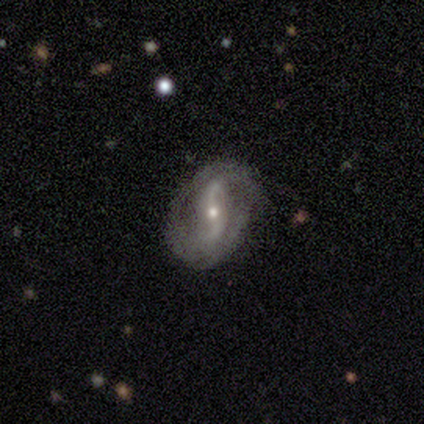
Smooth or featured?
  - featured or disk: 80% *
  - star or artifact: 20%
  - smooth: 0%
Edge-on disk?
  - no: 75% *
  - yes: 25%
Bar?
  - no: 67% *
  - weak: 33%
  - strong: 0%
Spiral arms?
  - yes: 67% *
  - no: 33%
Spiral winding?
  - loose: 100% *
  - tight: 0%
  - medium: 0%
Spiral arm count?
  - 2: 100% *
  - 1: 0%
  - 3: 0%
  - 4: 0%
  - more than 4: 0%
  - can't tell: 0%
Bulge size?
  - small: 100% *
  - dominant: 0%
  - large: 0%
  - moderate: 0%
  - none: 0%
Merging?
  - none: 75% *
  - minor disturbance: 25%
  - major disturbance: 0%
  - merger: 0%